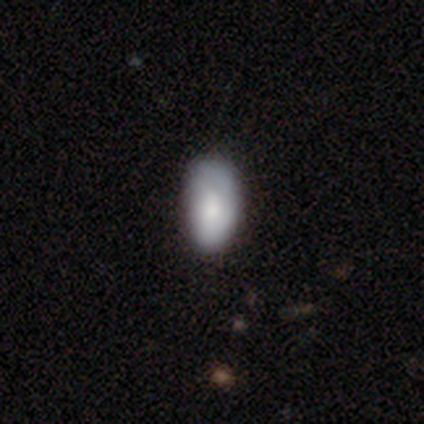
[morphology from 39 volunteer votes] Volunteers were most divided on "smooth or featured": smooth: 72%, featured or disk: 26%, star or artifact: 3%. More confident: how rounded — in between (100%); merging — none (68%).